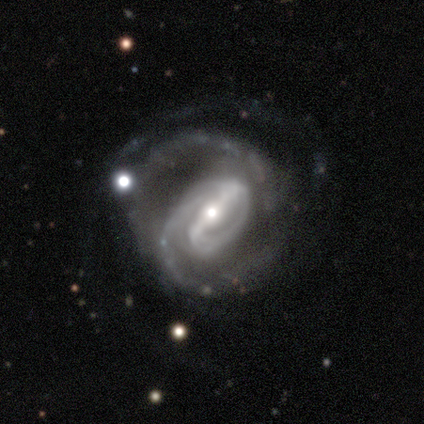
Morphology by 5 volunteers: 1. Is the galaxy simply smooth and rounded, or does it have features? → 100% featured or disk, 0% smooth, 0% star or artifact.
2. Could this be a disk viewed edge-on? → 100% no, 0% yes.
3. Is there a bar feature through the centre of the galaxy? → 80% strong, 20% weak, 0% no.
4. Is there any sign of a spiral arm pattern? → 100% yes, 0% no.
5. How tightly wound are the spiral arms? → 60% tight, 20% medium, 20% loose.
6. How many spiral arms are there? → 80% 2, 20% 1, 0% 3, 0% 4, 0% more than 4, 0% can't tell.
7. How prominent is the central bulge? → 60% moderate, 40% small, 0% dominant, 0% large, 0% none.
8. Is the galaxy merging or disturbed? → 40% minor disturbance (tied), 40% major disturbance (tied), 20% none, 0% merger.